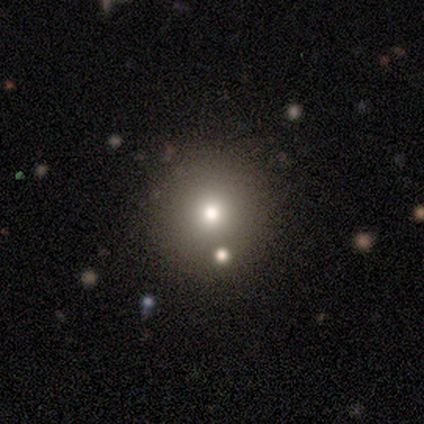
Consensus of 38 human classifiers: This is likely a smooth galaxy (63%). How rounded: clearly round (100%). Merging: clearly none (97%).